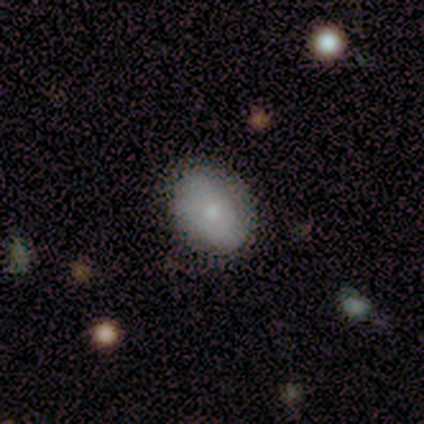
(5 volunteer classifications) This appears to be a smooth galaxy with no disk features (60%) that is round (67%). Merging: none (100%).